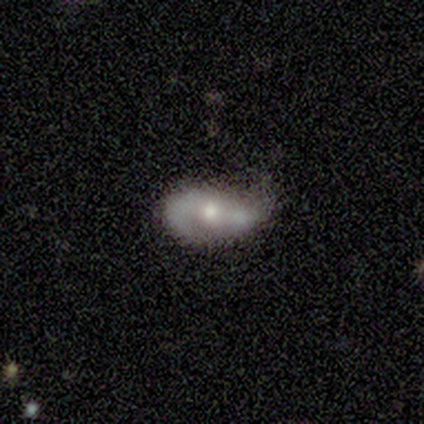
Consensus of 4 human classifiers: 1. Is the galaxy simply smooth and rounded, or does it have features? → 100% featured or disk, 0% smooth, 0% star or artifact.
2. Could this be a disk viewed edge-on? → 100% no, 0% yes.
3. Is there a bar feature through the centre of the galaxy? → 100% no, 0% strong, 0% weak.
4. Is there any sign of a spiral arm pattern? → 50% yes (tied), 50% no (tied).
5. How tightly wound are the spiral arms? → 100% loose, 0% tight, 0% medium.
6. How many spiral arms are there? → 100% 2, 0% 1, 0% 3, 0% 4, 0% more than 4, 0% can't tell.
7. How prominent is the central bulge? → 50% moderate, 25% large, 25% small, 0% dominant, 0% none.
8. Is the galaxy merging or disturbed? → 75% minor disturbance, 25% none, 0% major disturbance, 0% merger.